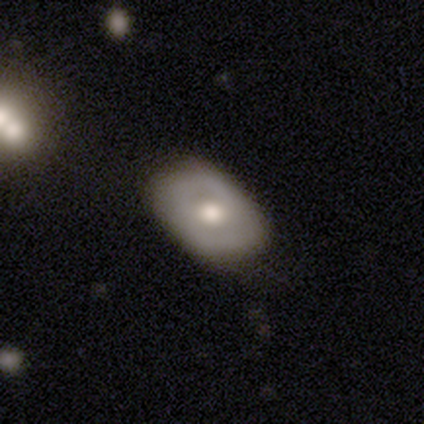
smooth-or-featured: featured or disk: 55% | smooth: 42% | star or artifact: 2%
  disk-edge-on: no: 100% | yes: 0%
    bar: no: 77% | weak: 18% | strong: 5%
    has-spiral-arms: no: 73% | yes: 27%
    bulge-size: moderate: 50% | large: 36% | small: 9% | none: 5% | dominant: 0%
  merging: none: 62% | minor disturbance: 13% | major disturbance: 3% | merger: 0%